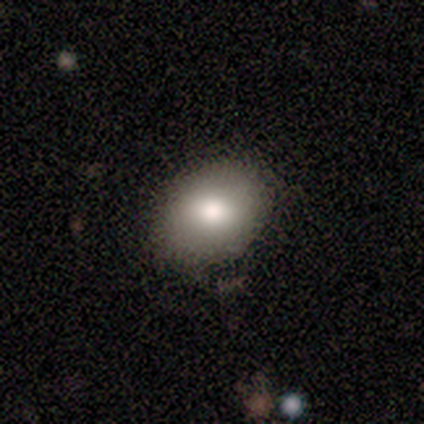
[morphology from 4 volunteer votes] A smooth galaxy with no disk features (75%) that is in between round and cigar-shaped (67%). Merging: none (100%).